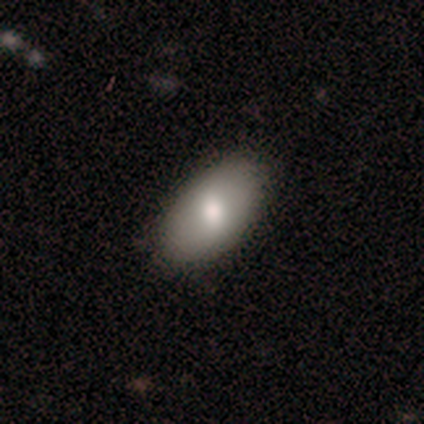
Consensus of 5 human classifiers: smooth_or_featured: smooth (p=1.00)
how_rounded: in between (p=1.00)
merging: none (p=1.00)